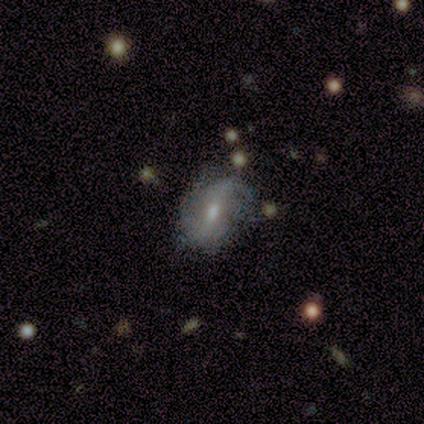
A featured or disk galaxy (67%) with a strong bar (50%, tied with weak), 2 (50%, tied with can't tell) medium (100%) spiral arms (100%) and a large central bulge (50%, tied with moderate). Merging: minor disturbance (67%).